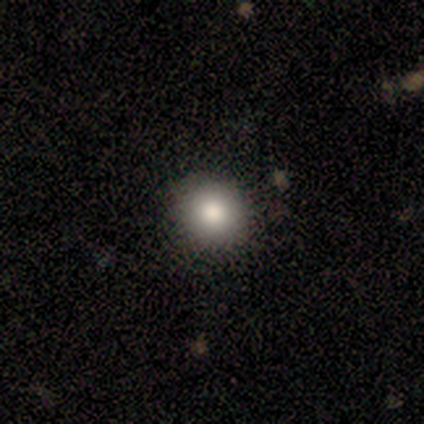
Smooth or featured?
  - smooth: 60% *
  - featured or disk: 40%
  - star or artifact: 0%
How rounded?
  - round: 100% *
  - in between: 0%
  - cigar-shaped: 0%
Merging?
  - none: 100% *
  - minor disturbance: 0%
  - major disturbance: 0%
  - merger: 0%